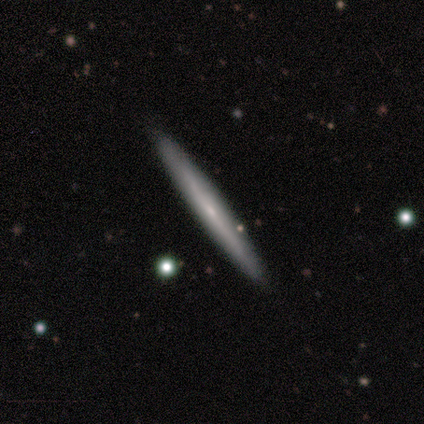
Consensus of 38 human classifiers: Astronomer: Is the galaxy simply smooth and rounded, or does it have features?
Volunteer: featured or disk — 61%.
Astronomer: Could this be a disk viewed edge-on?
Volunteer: yes — 87%.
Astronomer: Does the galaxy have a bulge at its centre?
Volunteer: none — 80%.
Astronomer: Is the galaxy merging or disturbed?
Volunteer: none — 89%.